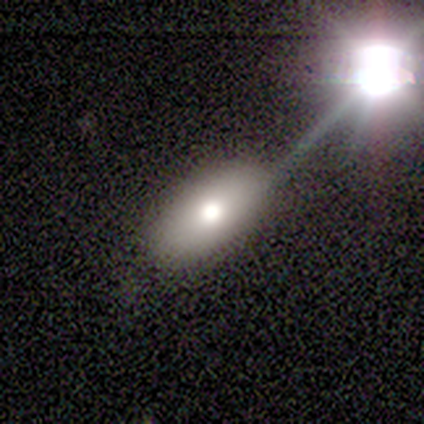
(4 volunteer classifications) This appears to be a featured or disk galaxy (50%) with no bar (100%), no spiral arms (100%) and a moderate central bulge (100%). Merging: none (100%).